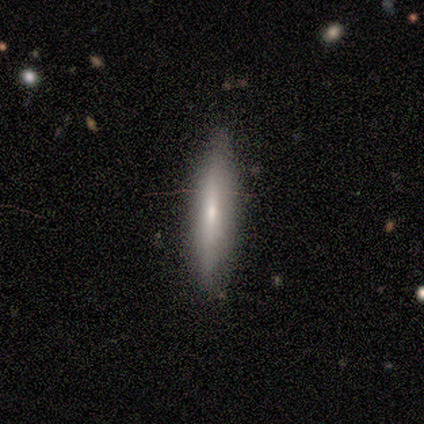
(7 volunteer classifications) This is likely a smooth galaxy (71%). How rounded: clearly cigar-shaped (80%). Merging: clearly none (100%).